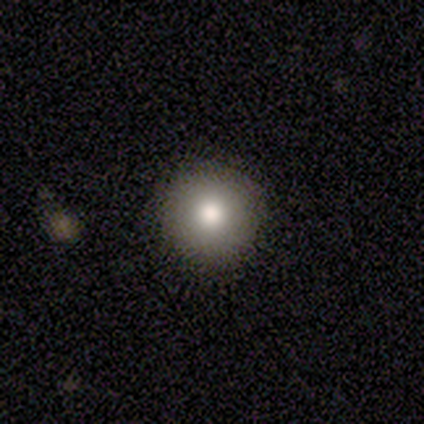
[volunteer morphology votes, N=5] Smooth or featured? smooth (80%)
How rounded? round (100%)
Merging? none (100%)